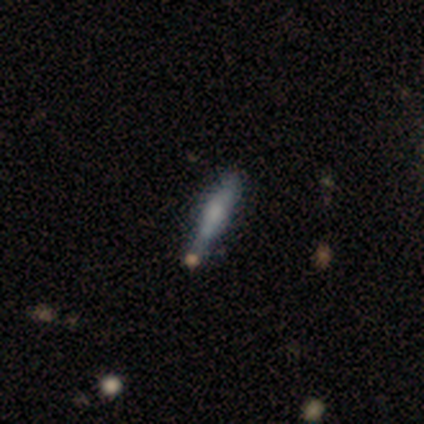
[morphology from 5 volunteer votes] This appears to be a smooth galaxy with no disk features (60%) that is cigar-shaped (100%). Merging: none (75%).